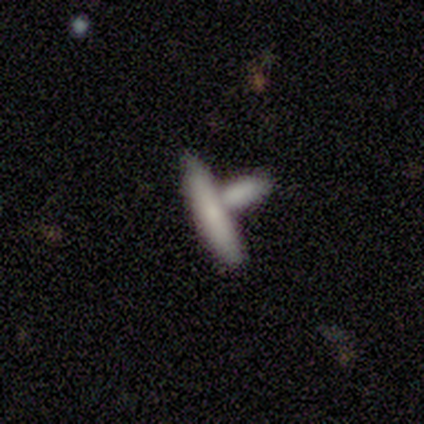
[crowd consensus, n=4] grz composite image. It shows a smooth galaxy with no disk features (75%) that is cigar-shaped (100%). Merging: none (50%, tied with merger).